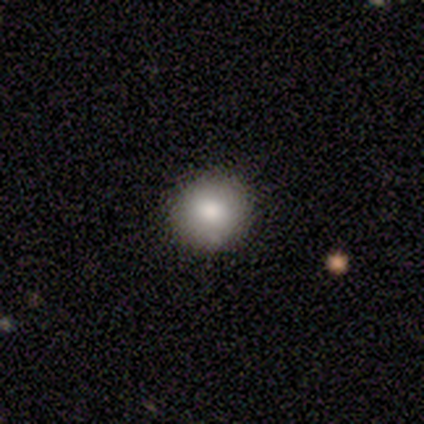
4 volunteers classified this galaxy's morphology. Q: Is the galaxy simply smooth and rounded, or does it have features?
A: smooth — 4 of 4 (100%).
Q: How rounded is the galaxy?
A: round — 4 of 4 (100%).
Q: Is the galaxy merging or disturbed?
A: none — 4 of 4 (100%).